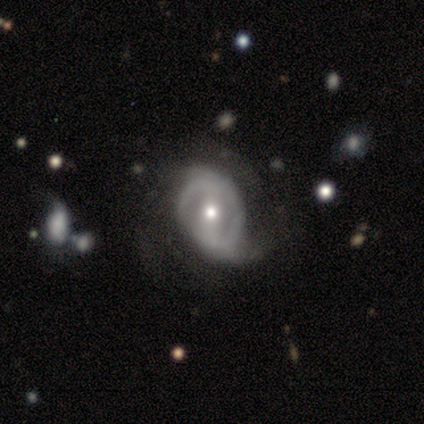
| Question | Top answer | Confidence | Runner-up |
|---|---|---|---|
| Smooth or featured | featured or disk | 100% | — |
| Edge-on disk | no | 100% | — |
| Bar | strong | 38% | tied: weak (38%) |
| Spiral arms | yes | 88% | no (12%) |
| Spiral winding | tight | 43% | medium (29%) |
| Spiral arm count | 2 | 43% | can't tell (29%) |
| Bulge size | moderate | 75% | small (25%) |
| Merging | none | 50% | minor disturbance (38%) |